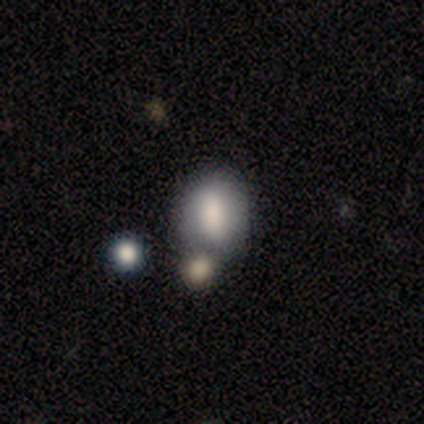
This appears to be a smooth galaxy with no disk features (80%) that is in between round and cigar-shaped (75%). Merging: merger (60%).